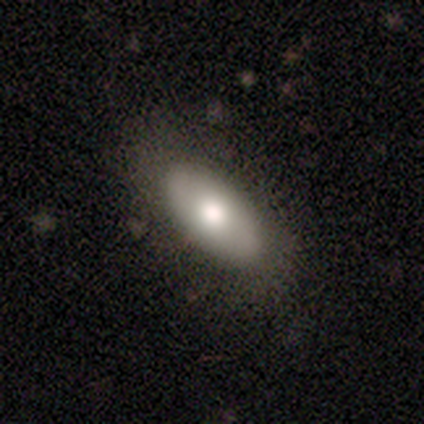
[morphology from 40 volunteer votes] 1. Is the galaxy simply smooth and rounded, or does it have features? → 75% smooth, 22% featured or disk, 2% star or artifact.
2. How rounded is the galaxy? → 87% in between, 10% cigar-shaped, 3% round.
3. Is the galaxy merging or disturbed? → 67% none, 10% minor disturbance, 5% merger, 0% major disturbance.